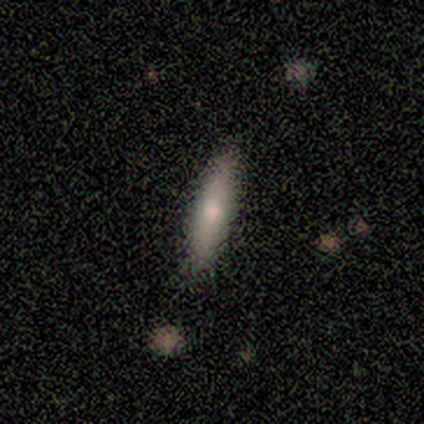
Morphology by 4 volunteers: This is likely a smooth galaxy (75%). How rounded: clearly cigar-shaped (100%). Merging: clearly none (100%).